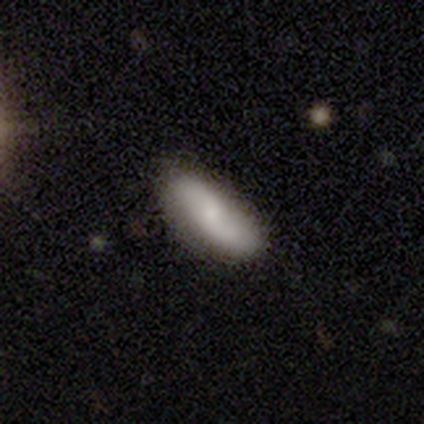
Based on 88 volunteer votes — smooth 70%, featured or disk 28%, star or artifact 1%. Down the decision tree: how rounded — in between (77%); merging — none (78%).